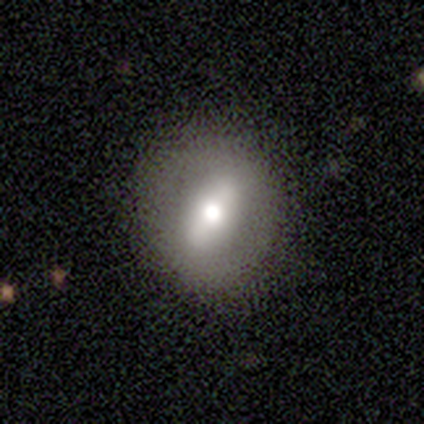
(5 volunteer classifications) smooth_or_featured: featured or disk (p=0.60) [alt: smooth p=0.40]
disk_edge_on: no (p=1.00)
bar: weak (p=0.67) [alt: strong p=0.33]
has_spiral_arms: no (p=1.00)
bulge_size: small (p=0.67) [alt: large p=0.33]
merging: none (p=1.00)